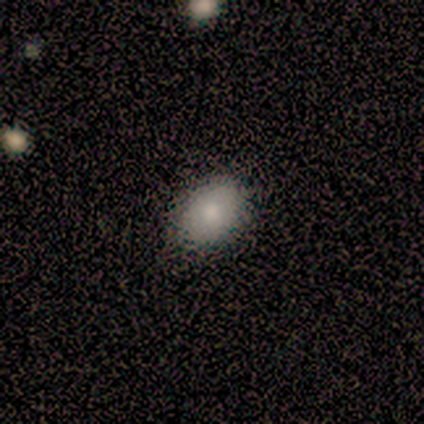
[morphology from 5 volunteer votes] Smooth or featured: smooth — 80% (star or artifact — 20%)
How rounded: round — 50% (tied with in between — 50%)
Merging: none — 100%